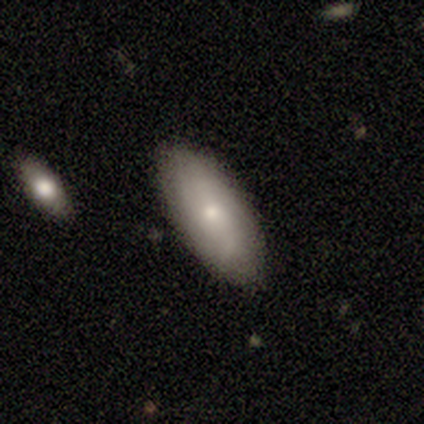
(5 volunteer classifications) smooth 100%, featured or disk 0%, star or artifact 0%. Down the decision tree: how rounded — in between (60%); merging — none (100%).